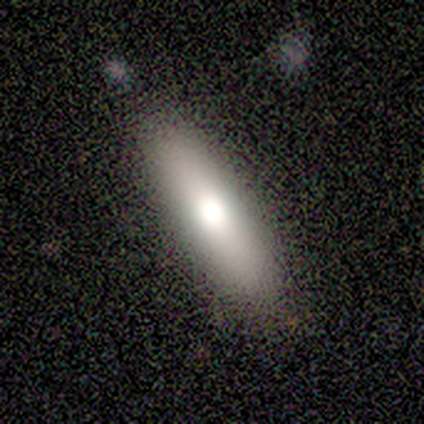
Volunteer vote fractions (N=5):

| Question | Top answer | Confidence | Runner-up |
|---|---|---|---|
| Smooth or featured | smooth | 100% | — |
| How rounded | cigar-shaped | 100% | — |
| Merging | none | 100% | — |